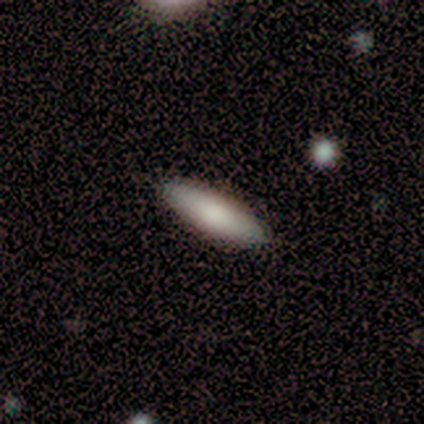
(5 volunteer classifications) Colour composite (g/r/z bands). It shows a smooth galaxy with no disk features (80%) that is cigar-shaped (75%). Merging: none (100%).